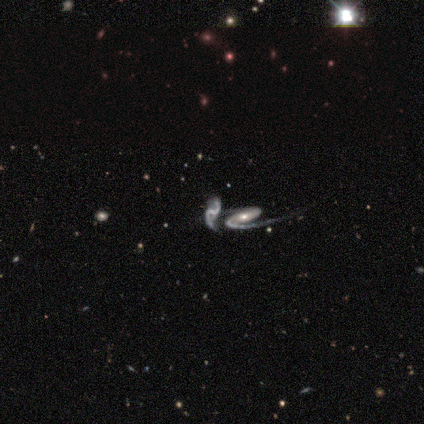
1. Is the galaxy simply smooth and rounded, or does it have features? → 60% featured or disk, 40% star or artifact, 0% smooth.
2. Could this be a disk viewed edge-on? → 100% no, 0% yes.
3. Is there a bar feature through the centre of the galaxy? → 67% no, 33% strong, 0% weak.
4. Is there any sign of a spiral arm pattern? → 100% yes, 0% no.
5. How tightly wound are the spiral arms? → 67% medium, 33% loose, 0% tight.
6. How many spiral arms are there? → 67% 2, 33% can't tell, 0% 1, 0% 3, 0% 4, 0% more than 4.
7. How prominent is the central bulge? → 33% moderate (tied), 33% small (tied), 33% none (tied), 0% dominant, 0% large.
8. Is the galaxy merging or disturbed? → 100% merger, 0% none, 0% minor disturbance, 0% major disturbance.